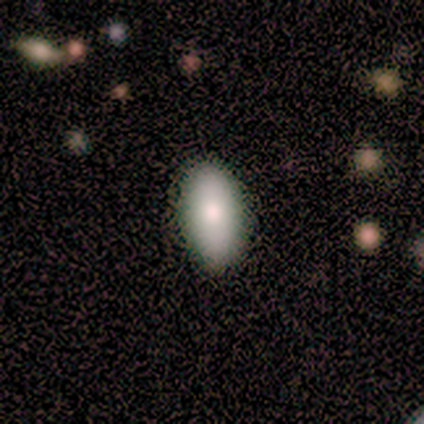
smooth 86%, featured or disk 14%, star or artifact 0%. Down the decision tree: how rounded — in between (100%); merging — none (86%).